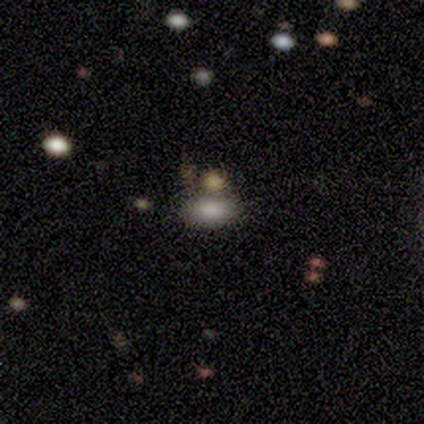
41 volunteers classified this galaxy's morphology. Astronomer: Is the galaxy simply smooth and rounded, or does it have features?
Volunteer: smooth — 71%.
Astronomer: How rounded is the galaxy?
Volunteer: in between — 93%.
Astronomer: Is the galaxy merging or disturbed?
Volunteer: none — 72%.